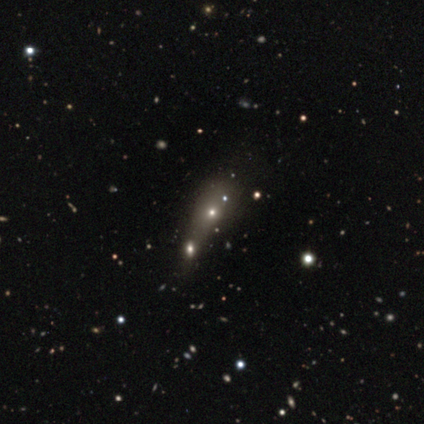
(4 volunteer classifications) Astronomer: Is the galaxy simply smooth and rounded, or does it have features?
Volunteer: star or artifact — 100%.